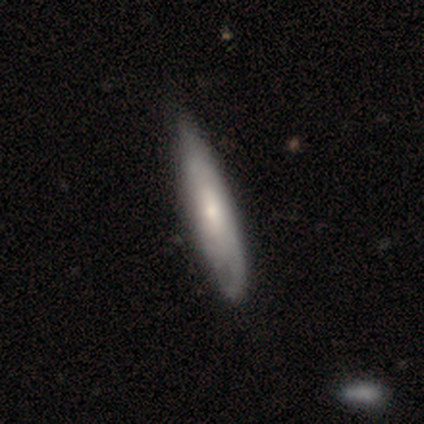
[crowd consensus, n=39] smooth 56%, featured or disk 44%, star or artifact 0%. Down the decision tree: how rounded — cigar-shaped (86%); merging — none (62%).